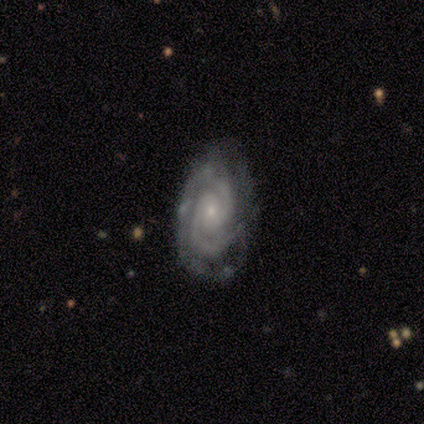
Smooth or featured? featured or disk (93%)
Edge-on disk? no (100%)
Bar? no (93%)
Spiral arms? yes (100%)
Spiral winding? tight (79%)
Spiral arm count? 2 (93%)
Bulge size? small (93%)
Merging? none (87%)